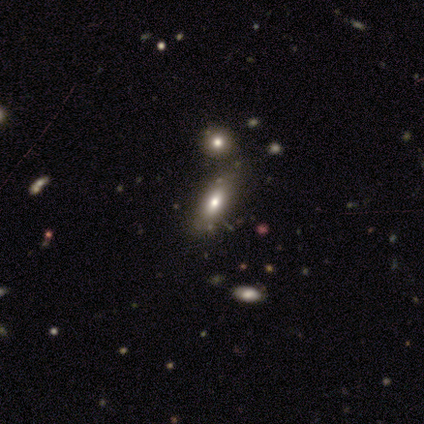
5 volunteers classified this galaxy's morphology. A smooth galaxy with no disk features (60%) that is in between round and cigar-shaped (100%).

Vote fractions:
- Smooth or featured? smooth: 60% / featured or disk: 40% / star or artifact: 0%
- How rounded? in between: 100% / round: 0% / cigar-shaped: 0%
- Merging? none: 40% (tied) / merger: 40% (tied) / minor disturbance: 20% / major disturbance: 0%